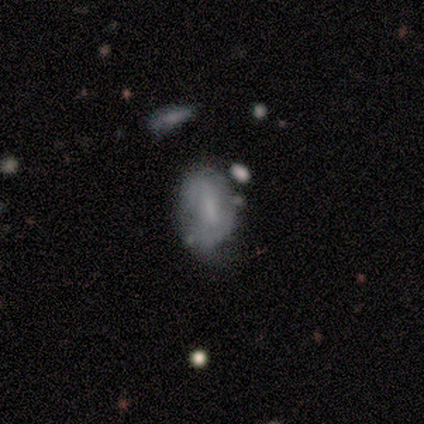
Overall: smooth (58%; featured or disk 33%). How rounded: in between (100%). Merging: none (64%; minor disturbance 36%).